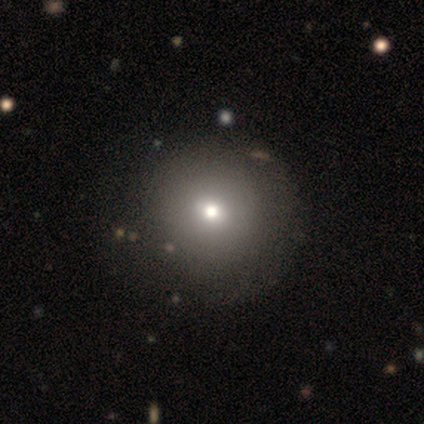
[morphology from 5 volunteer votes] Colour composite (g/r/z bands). It shows a smooth galaxy with no disk features (100%) that is round (100%). Merging: none (60%).